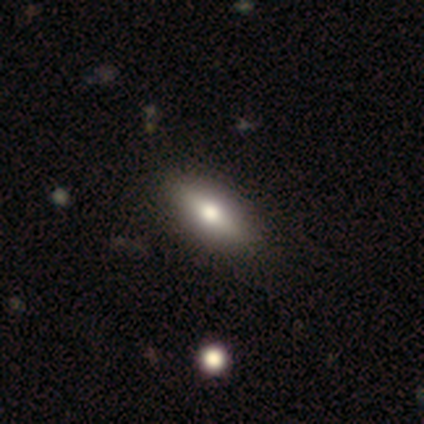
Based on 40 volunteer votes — This appears to be a smooth galaxy with no disk features (60%) that is in between round and cigar-shaped (75%). Merging: none (66%).